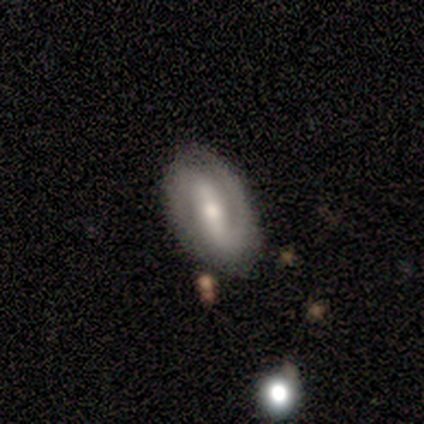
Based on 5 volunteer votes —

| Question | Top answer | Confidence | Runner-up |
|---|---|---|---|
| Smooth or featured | featured or disk | 80% | smooth (20%) |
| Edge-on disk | no | 100% | — |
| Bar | strong | 75% | weak (25%) |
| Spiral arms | yes | 100% | — |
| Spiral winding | tight | 50% | medium (25%) |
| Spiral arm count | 2 | 100% | — |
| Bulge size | moderate | 100% | — |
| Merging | none | 100% | — |